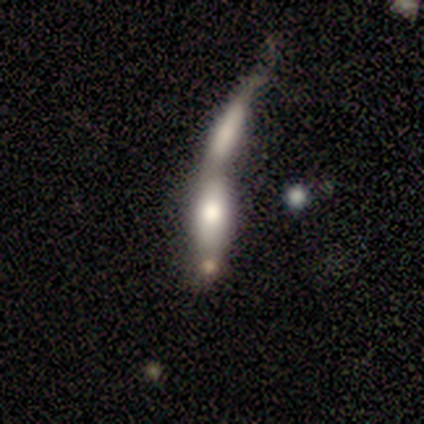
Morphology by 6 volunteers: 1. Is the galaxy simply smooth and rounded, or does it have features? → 67% smooth, 33% featured or disk, 0% star or artifact.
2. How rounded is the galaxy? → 75% in between, 25% cigar-shaped, 0% round.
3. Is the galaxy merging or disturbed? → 100% merger, 0% none, 0% minor disturbance, 0% major disturbance.